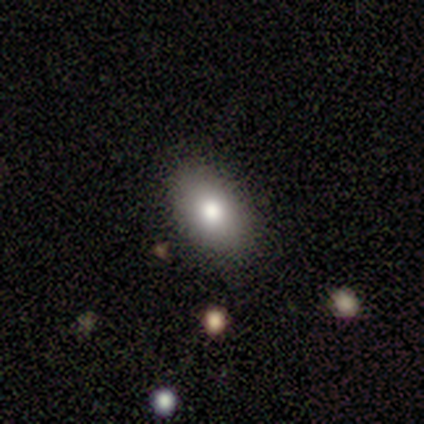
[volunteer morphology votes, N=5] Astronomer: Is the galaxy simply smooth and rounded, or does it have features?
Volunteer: smooth — 80%.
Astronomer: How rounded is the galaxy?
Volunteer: in between — 100%.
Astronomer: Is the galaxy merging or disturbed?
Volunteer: none — 80%.